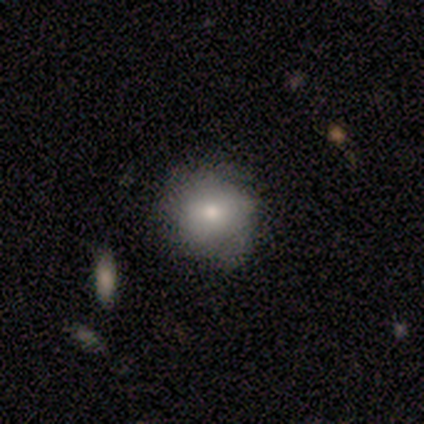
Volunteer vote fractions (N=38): Smooth or featured? smooth (87%)
How rounded? round (85%)
Merging? none (61%)